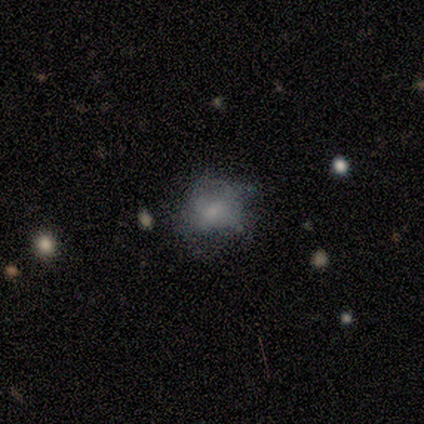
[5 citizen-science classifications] A smooth galaxy with no disk features (80%) that is round (100%).

Vote fractions:
- Smooth or featured? smooth: 80% / featured or disk: 20% / star or artifact: 0%
- How rounded? round: 100% / in between: 0% / cigar-shaped: 0%
- Merging? minor disturbance: 60% / none: 40% / major disturbance: 0% / merger: 0%